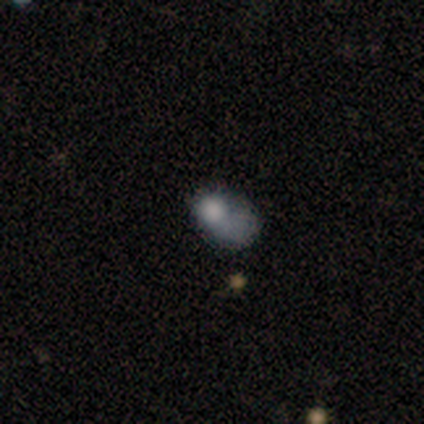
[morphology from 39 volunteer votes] Smooth or featured? smooth (54%)
How rounded? in between (67%)
Merging? major disturbance (48%)